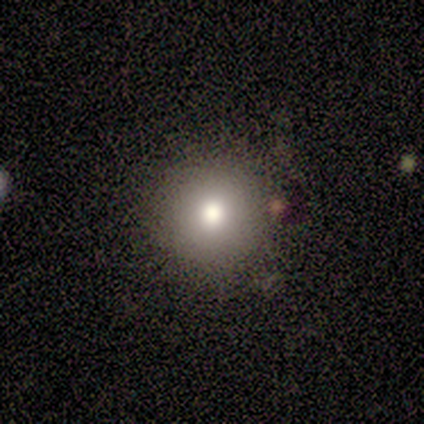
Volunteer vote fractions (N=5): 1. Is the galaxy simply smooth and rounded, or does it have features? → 60% smooth, 20% featured or disk, 20% star or artifact.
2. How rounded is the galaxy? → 100% round, 0% in between, 0% cigar-shaped.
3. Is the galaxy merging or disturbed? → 100% none, 0% minor disturbance, 0% major disturbance, 0% merger.